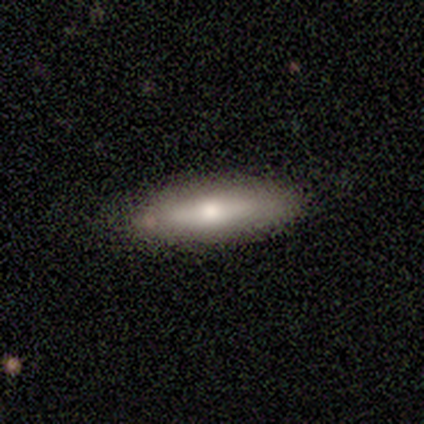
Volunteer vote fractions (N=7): Smooth or featured: smooth — 71% (featured or disk — 29%)
How rounded: cigar-shaped — 60% (in between — 40%)
Merging: none — 86% (minor disturbance — 14%)